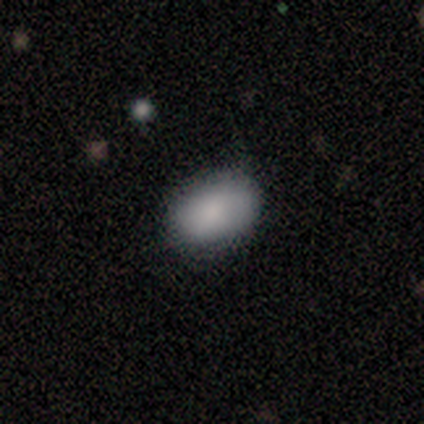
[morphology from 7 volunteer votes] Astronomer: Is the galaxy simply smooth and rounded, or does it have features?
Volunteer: smooth — 86%.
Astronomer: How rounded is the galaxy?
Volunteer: in between — 83%.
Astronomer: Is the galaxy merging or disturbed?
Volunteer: none — 83%.